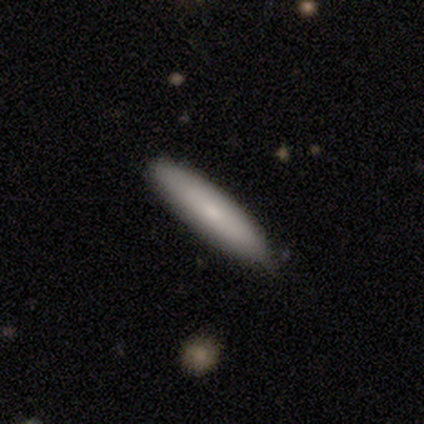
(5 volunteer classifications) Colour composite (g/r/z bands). It shows a smooth galaxy with no disk features (100%) that is cigar-shaped (80%). Merging: none (40%, tied with minor disturbance).